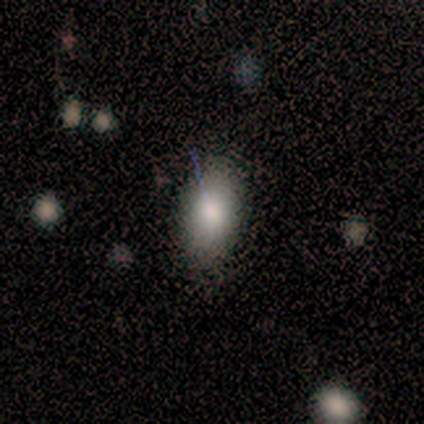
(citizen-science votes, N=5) This is clearly a smooth galaxy (80%). How rounded: clearly in between (100%). Merging: clearly none (100%).